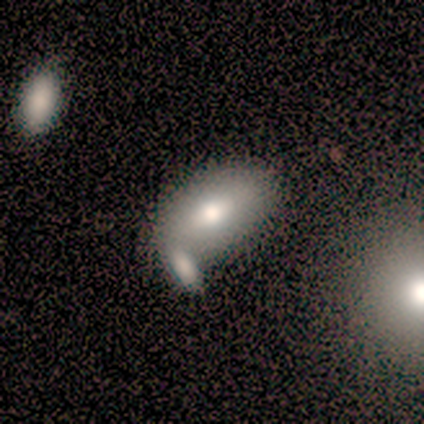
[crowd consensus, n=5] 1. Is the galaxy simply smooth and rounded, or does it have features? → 80% smooth, 20% featured or disk, 0% star or artifact.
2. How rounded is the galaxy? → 100% in between, 0% round, 0% cigar-shaped.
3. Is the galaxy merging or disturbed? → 40% none (tied), 40% merger (tied), 20% minor disturbance, 0% major disturbance.